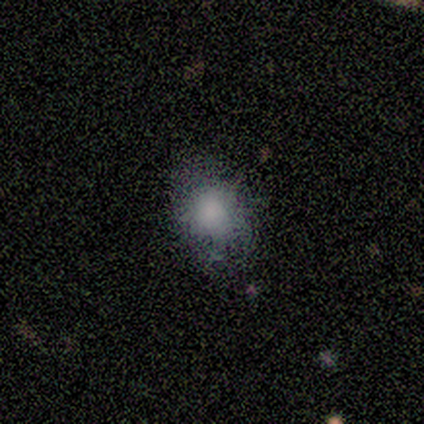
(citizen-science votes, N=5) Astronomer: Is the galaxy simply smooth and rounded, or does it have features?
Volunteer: smooth — 100%.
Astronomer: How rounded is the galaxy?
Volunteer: in between — 60% (runner-up: round, 40%).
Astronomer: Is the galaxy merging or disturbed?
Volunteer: none — 60% (runner-up: minor disturbance, 40%).